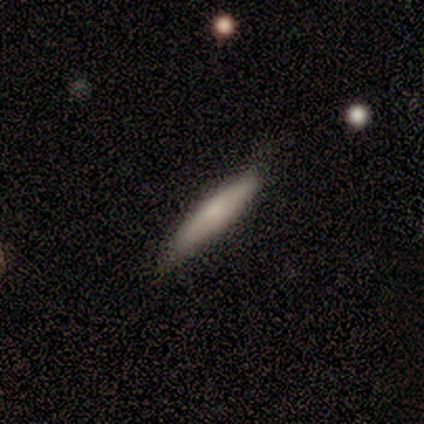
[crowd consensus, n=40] smooth-or-featured: smooth: 82% | featured or disk: 12% | star or artifact: 5%
  how-rounded: cigar-shaped: 94% | in between: 6% | round: 0%
  merging: none: 87% | minor disturbance: 11% | merger: 3% | major disturbance: 0%